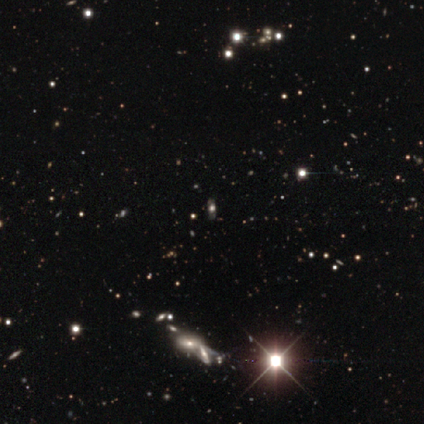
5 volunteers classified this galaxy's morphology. Smooth or featured? star or artifact (60%)